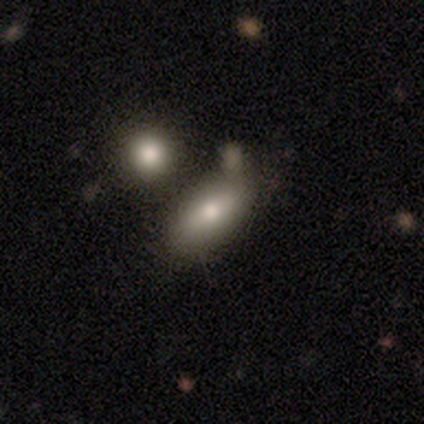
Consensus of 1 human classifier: Consensus on every question: smooth or featured — smooth (100%); how rounded — in between (100%); merging — minor disturbance (100%).